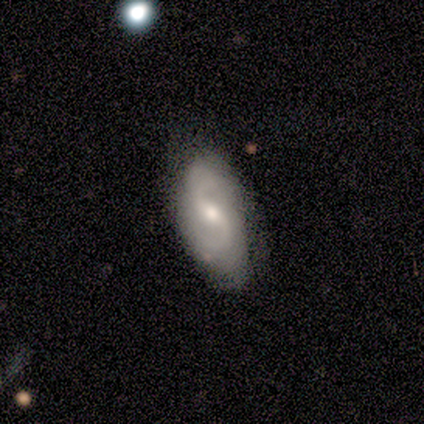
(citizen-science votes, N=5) Morphology: type=featured or disk (100%); edge-on=no (100%); bar=weak (100%); spiral arms=yes (100%); winding=loose (80%); arm count=2 (100%); bulge=moderate (60%); merging=none (60%).